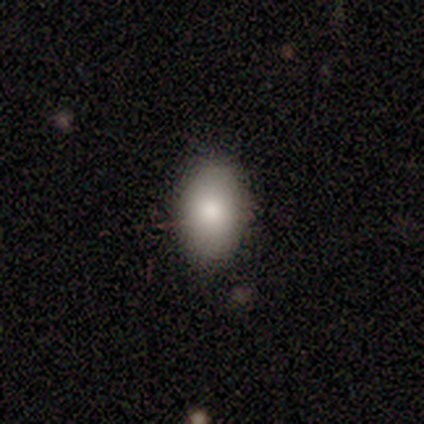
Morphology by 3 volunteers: Smooth or featured?
  - smooth: 100% *
  - featured or disk: 0%
  - star or artifact: 0%
How rounded?
  - in between: 100% *
  - round: 0%
  - cigar-shaped: 0%
Merging?
  - none: 100% *
  - minor disturbance: 0%
  - major disturbance: 0%
  - merger: 0%